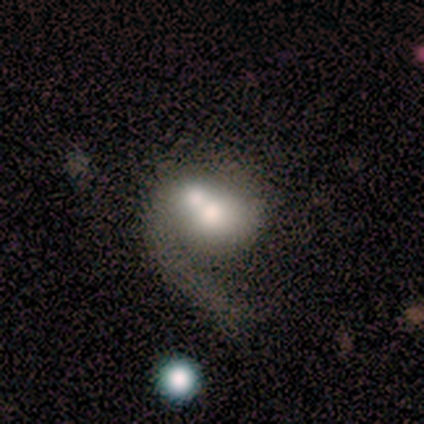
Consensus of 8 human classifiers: Volunteers were most divided on "bulge size" (2-way tie): dominant: 33%, large: 33%, moderate: 17%, small: 17%, none: 0%. More confident: smooth or featured — featured or disk (88%); merging — merger (88%); edge-on disk — no (86%); bar — no (83%); spiral arm count — 1 (75%); spiral arms — yes (67%); spiral winding — loose (50%).